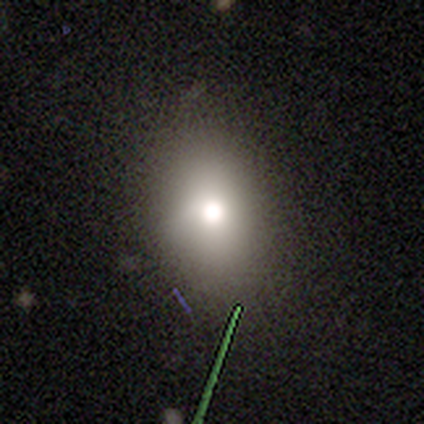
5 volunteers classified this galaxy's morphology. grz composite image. It shows a smooth galaxy with no disk features (40%, tied with featured or disk) that is round (50%, tied with in between). Merging: none (100%).